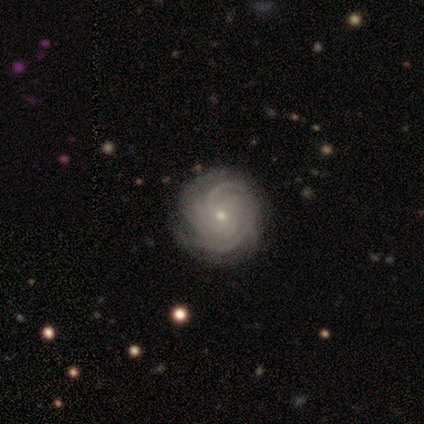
Q: Smooth or featured?
A: featured or disk (100%)
Q: Edge-on disk?
A: no (100%)
Q: Bar?
A: strong (40%); tied with: no (40%)
Q: Spiral arms?
A: yes (100%)
Q: Spiral winding?
A: tight (80%); runner-up: medium (20%)
Q: Spiral arm count?
A: 4 (60%); runner-up: can't tell (40%)
Q: Bulge size?
A: small (100%)
Q: Merging?
A: none (100%)